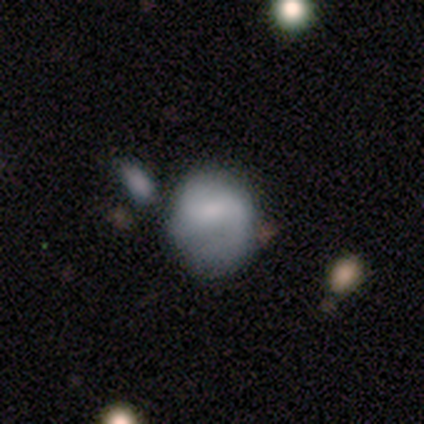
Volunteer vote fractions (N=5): Q: Smooth or featured?
A: smooth (40%); tied with: star or artifact (40%)
Q: How rounded?
A: round (50%); tied with: in between (50%)
Q: Merging?
A: none (67%); runner-up: minor disturbance (33%)